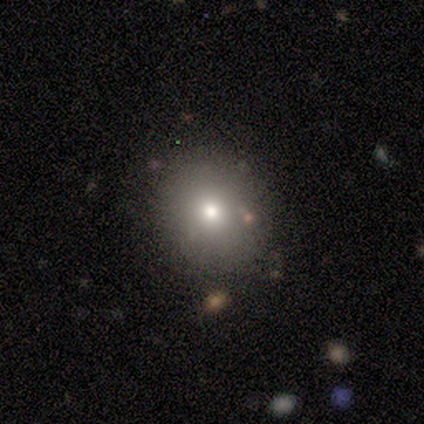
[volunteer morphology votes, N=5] Smooth or featured: smooth — 100%
How rounded: round — 80% (in between — 20%)
Merging: none — 80% (minor disturbance — 20%)